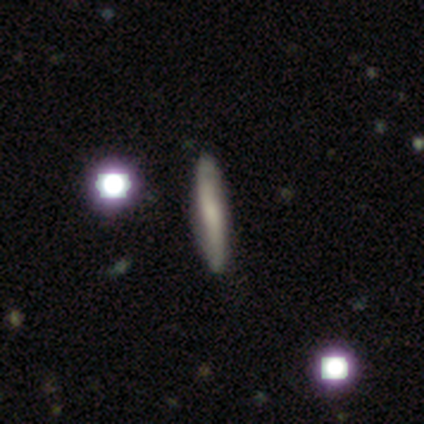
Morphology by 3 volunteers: A smooth galaxy with no disk features (67%) that is in between round and cigar-shaped (50%, tied with cigar-shaped). Merging: minor disturbance (67%).